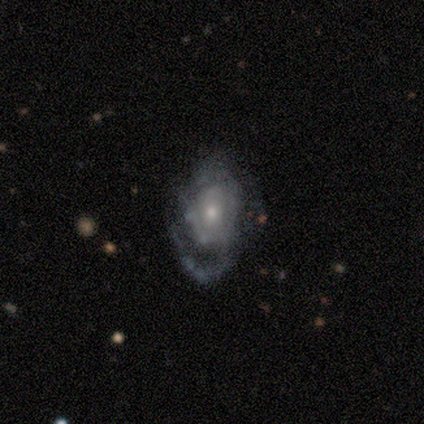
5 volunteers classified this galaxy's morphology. A featured or disk galaxy (100%) with no bar (100%), 1 (75%) loose (75%) spiral arms (80%) and a moderate central bulge (80%). Merging: none (60%).